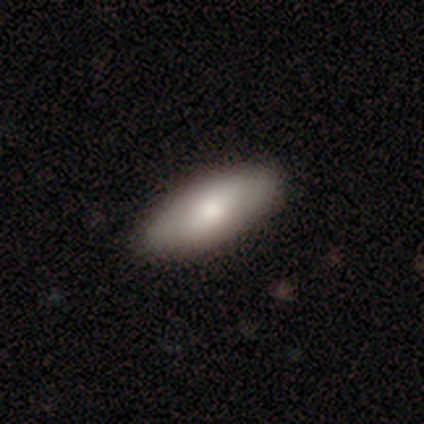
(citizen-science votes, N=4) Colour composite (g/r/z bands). It shows a featured or disk galaxy (75%) with no bar (67%), no spiral arms (67%) and a moderate central bulge (67%). Merging: none (75%).